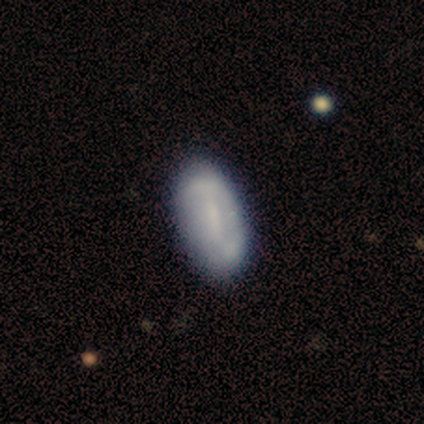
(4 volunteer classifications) Q: Smooth or featured?
A: smooth (100%)
Q: How rounded?
A: in between (100%)
Q: Merging?
A: none (100%)